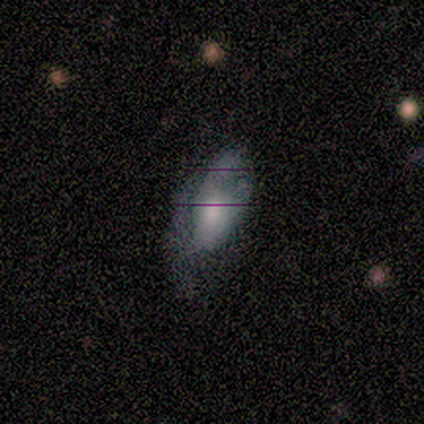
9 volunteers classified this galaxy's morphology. featured or disk 78%, smooth 11%, star or artifact 11%. Down the decision tree: edge-on disk — no (100%); bar — no (86%); spiral arms — no (71%); bulge size — moderate (57%); merging — minor disturbance (38%, tied with major disturbance).